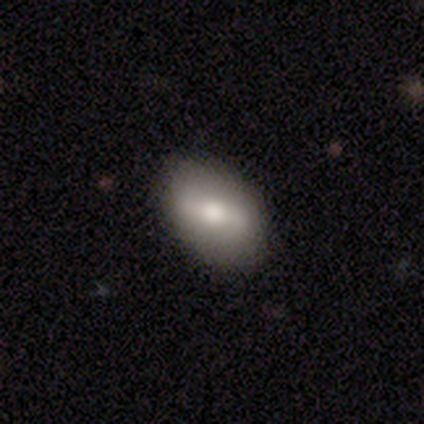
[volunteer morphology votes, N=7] Smooth or featured?
  - smooth: 71% *
  - featured or disk: 29%
  - star or artifact: 0%
How rounded?
  - in between: 60% *
  - round: 40%
  - cigar-shaped: 0%
Merging?
  - none: 100% *
  - minor disturbance: 0%
  - major disturbance: 0%
  - merger: 0%